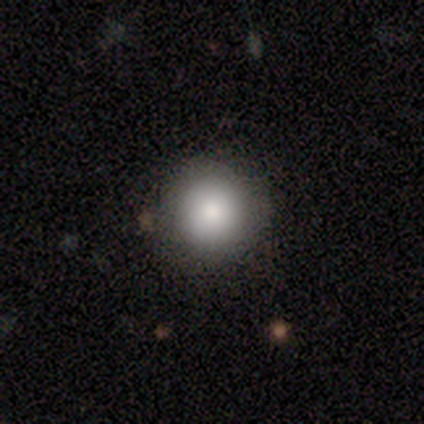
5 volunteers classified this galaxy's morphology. Smooth or featured: smooth — 100%
How rounded: round — 100%
Merging: none — 80% (minor disturbance — 20%)